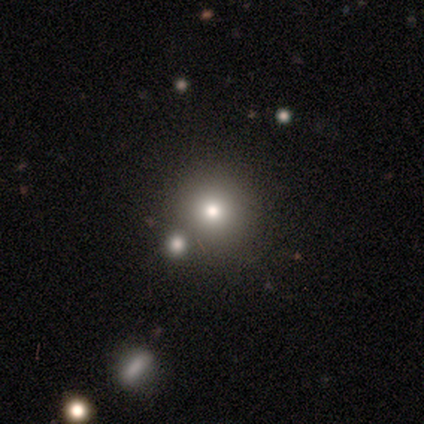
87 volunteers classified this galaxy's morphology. Smooth or featured: smooth — 67% (star or artifact — 24%)
How rounded: round — 95% (in between — 3%)
Merging: none — 73% (merger — 17%)